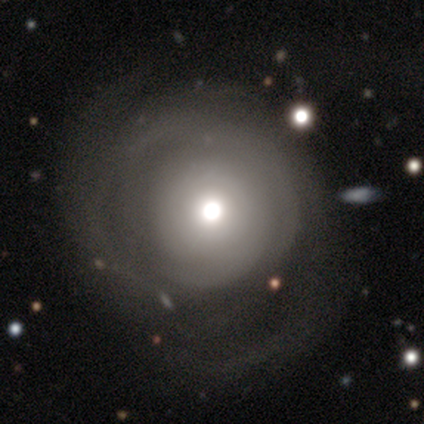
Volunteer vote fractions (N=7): smooth_or_featured: smooth (p=0.43) [tied with: featured or disk p=0.43]
how_rounded: round (p=1.00)
merging: minor disturbance (p=0.50) [alt: none p=0.17]